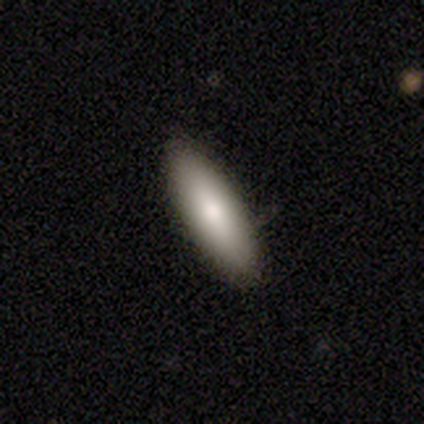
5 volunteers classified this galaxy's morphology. smooth_or_featured: smooth (p=0.40) [tied with: featured or disk p=0.40]
how_rounded: in between (p=1.00)
merging: none (p=1.00)